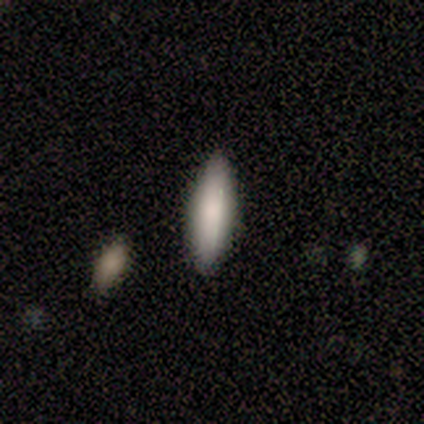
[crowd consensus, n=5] smooth_or_featured: smooth (p=0.60) [alt: featured or disk p=0.20]
how_rounded: in between (p=0.67) [alt: cigar-shaped p=0.33]
merging: none (p=0.75) [alt: major disturbance p=0.25]